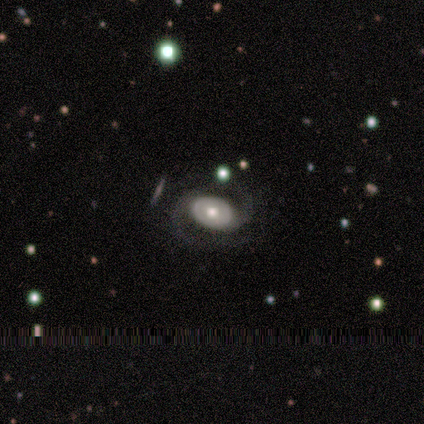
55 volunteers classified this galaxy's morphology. smooth_or_featured: featured or disk (p=0.82) [alt: smooth p=0.09]
disk_edge_on: no (p=1.00)
bar: no (p=0.71) [alt: weak p=0.20]
has_spiral_arms: yes (p=0.84) [alt: no p=0.16]
spiral_winding: medium (p=0.58) [alt: tight p=0.21]
spiral_arm_count: 2 (p=0.92) [alt: can't tell p=0.05]
bulge_size: moderate (p=0.76) [alt: large p=0.18]
merging: none (p=0.72) [alt: major disturbance p=0.12]